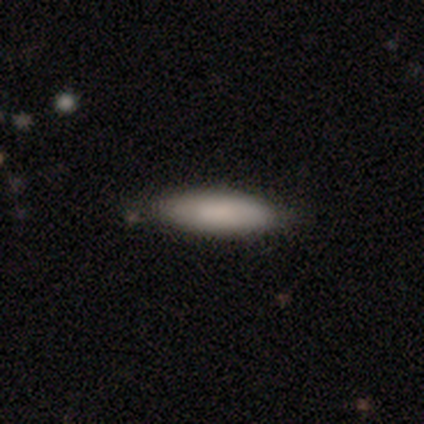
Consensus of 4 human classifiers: Smooth or featured?
  - smooth: 100% *
  - featured or disk: 0%
  - star or artifact: 0%
How rounded?
  - in between: 50% * (tied)
  - cigar-shaped: 50% * (tied)
  - round: 0%
Merging?
  - none: 75% *
  - minor disturbance: 25%
  - major disturbance: 0%
  - merger: 0%